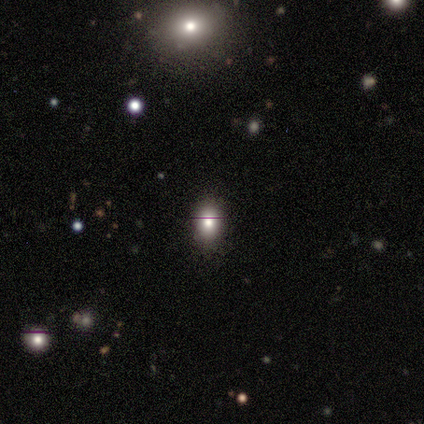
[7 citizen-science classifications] Smooth or featured: smooth — 71% (featured or disk — 14%)
How rounded: in between — 60% (round — 40%)
Merging: none — 83% (minor disturbance — 17%)